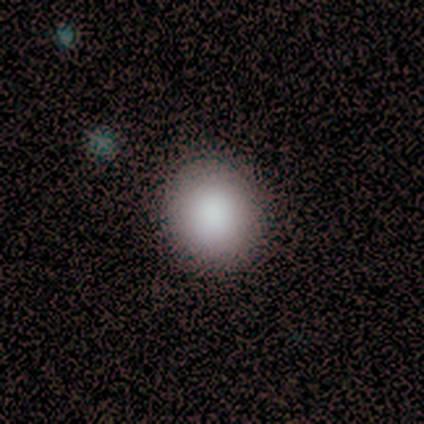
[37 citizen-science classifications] Smooth or featured? smooth (84%)
How rounded? round (84%)
Merging? none (94%)